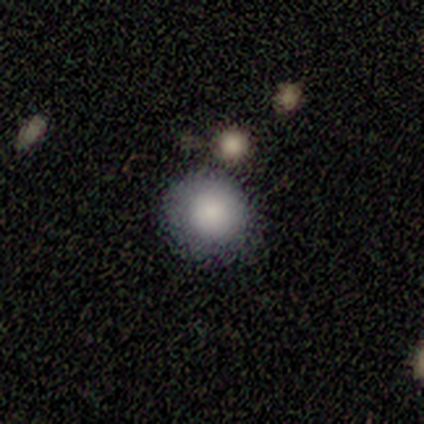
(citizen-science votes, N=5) smooth_or_featured: smooth (p=1.00)
how_rounded: round (p=1.00)
merging: none (p=1.00)